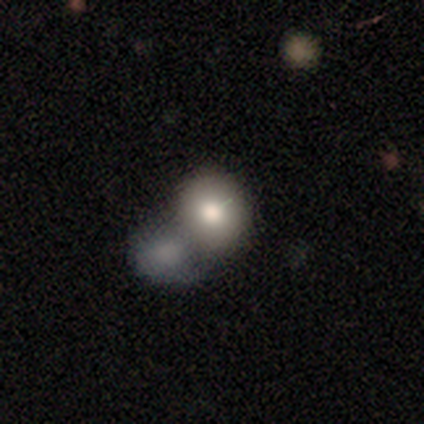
Morphology: type=smooth (82%); roundness=round (66%); merging=merger (59%).